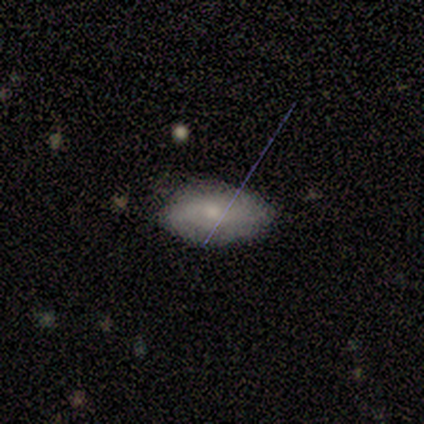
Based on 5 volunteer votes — Q: Smooth or featured?
A: smooth (40%); tied with: featured or disk (40%)
Q: How rounded?
A: in between (100%)
Q: Merging?
A: none (50%); tied with: minor disturbance (50%)